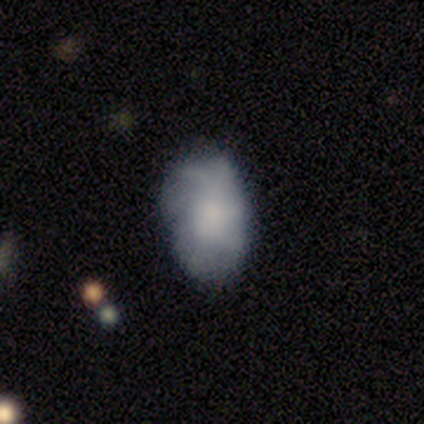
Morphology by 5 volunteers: smooth-or-featured: featured or disk: 80% | smooth: 20% | star or artifact: 0%
  disk-edge-on: no: 100% | yes: 0%
    bar: no: 75% | weak: 25% | strong: 0%
    has-spiral-arms: yes: 100% | no: 0%
      spiral-winding: tight: 50% (tied) | loose: 50% (tied) | medium: 0%
      spiral-arm-count: more than 4: 50% (tied) | can't tell: 50% (tied) | 1: 0% | 2: 0% | 3: 0% | 4: 0%
    bulge-size: moderate: 75% | none: 25% | dominant: 0% | large: 0% | small: 0%
  merging: none: 100% | minor disturbance: 0% | major disturbance: 0% | merger: 0%